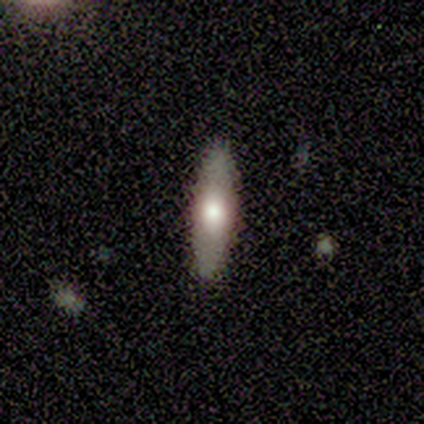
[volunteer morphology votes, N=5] Overall: featured or disk (80%). Edge-on disk: yes (50%, tied with no). Edge-on bulge: rounded (100%). Merging: none (80%).